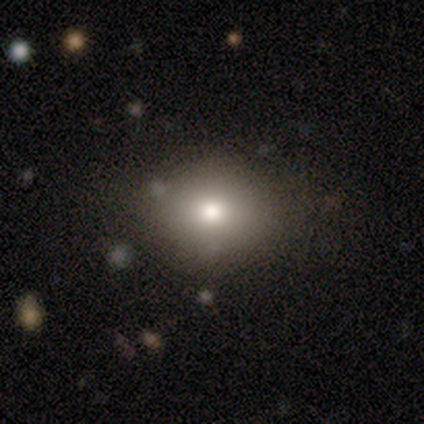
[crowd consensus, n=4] Overall: smooth (75%). How rounded: round (67%; in between 33%). Merging: none (100%).